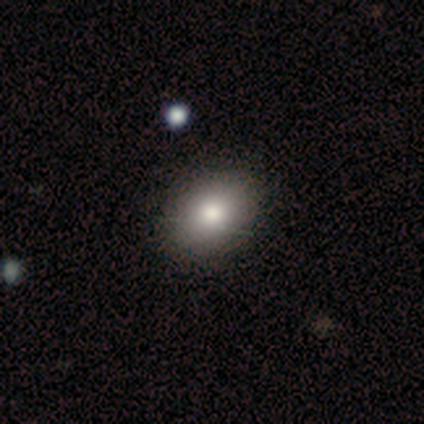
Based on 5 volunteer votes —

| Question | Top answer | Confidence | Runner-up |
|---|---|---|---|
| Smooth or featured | smooth | 100% | — |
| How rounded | in between | 80% | round (20%) |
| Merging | none | 80% | minor disturbance (20%) |